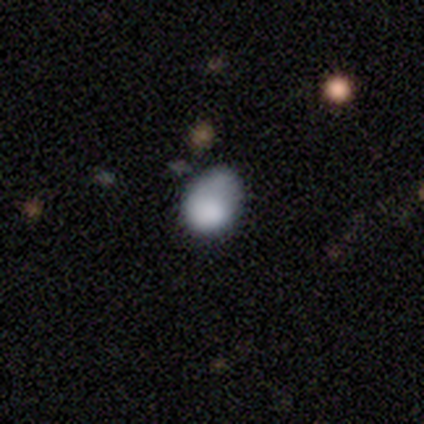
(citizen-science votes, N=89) Smooth or featured?
  - smooth: 76% *
  - featured or disk: 13%
  - star or artifact: 10%
How rounded?
  - in between: 71% *
  - round: 29%
  - cigar-shaped: 0%
Merging?
  - none: 46% *
  - minor disturbance: 39%
  - major disturbance: 14%
  - merger: 1%